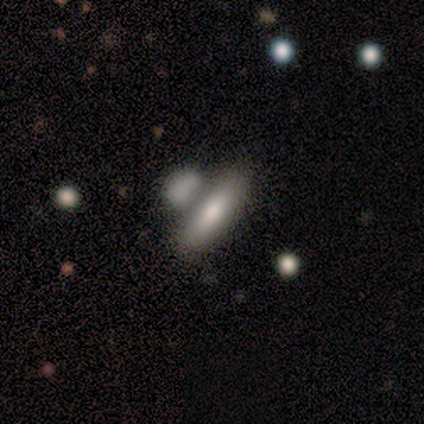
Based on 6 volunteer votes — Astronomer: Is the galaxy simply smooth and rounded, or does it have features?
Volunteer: smooth — 83%.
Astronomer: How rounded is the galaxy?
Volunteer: in between — 60% (runner-up: cigar-shaped, 40%).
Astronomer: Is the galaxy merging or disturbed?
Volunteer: none — 60% (runner-up: merger, 40%).